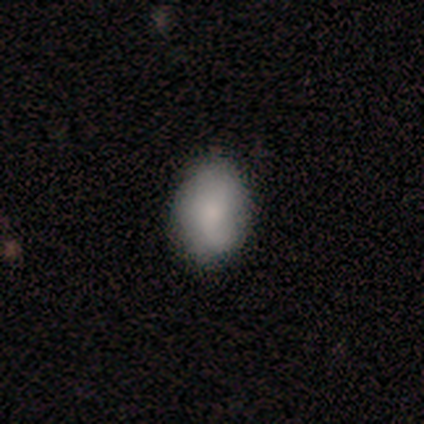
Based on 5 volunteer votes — Smooth or featured? 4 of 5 (80%) said smooth. How rounded? 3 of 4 (75%) said in between. Merging? 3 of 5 (60%) said minor disturbance.